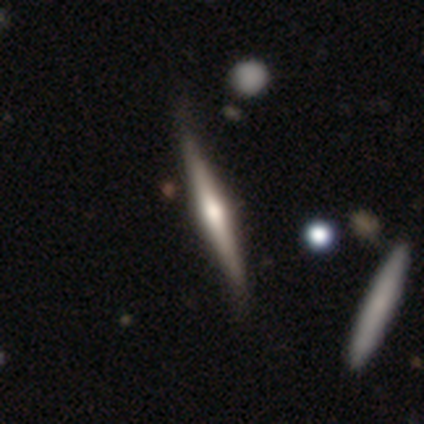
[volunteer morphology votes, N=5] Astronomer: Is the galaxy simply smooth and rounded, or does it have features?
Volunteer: featured or disk — 80%.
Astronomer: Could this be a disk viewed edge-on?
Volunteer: yes — 100%.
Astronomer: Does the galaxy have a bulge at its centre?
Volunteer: rounded — 75%.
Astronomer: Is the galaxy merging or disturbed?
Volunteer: none — 80%.